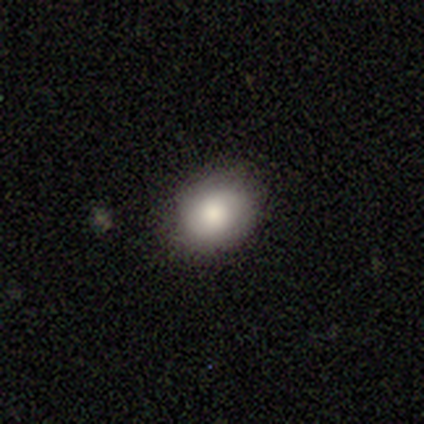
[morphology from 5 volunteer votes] Smooth or featured?
  - smooth: 80% *
  - featured or disk: 20%
  - star or artifact: 0%
How rounded?
  - in between: 100% *
  - round: 0%
  - cigar-shaped: 0%
Merging?
  - none: 60% *
  - minor disturbance: 40%
  - major disturbance: 0%
  - merger: 0%